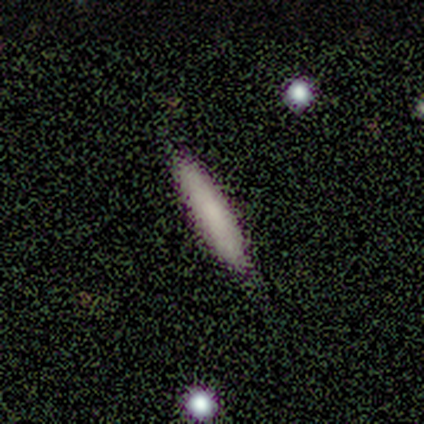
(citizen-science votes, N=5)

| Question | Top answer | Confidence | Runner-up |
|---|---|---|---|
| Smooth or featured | smooth | 80% | featured or disk (20%) |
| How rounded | cigar-shaped | 100% | — |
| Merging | none | 80% | minor disturbance (20%) |